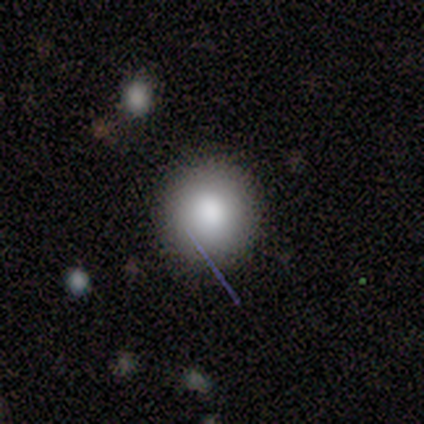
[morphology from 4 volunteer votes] Q: Smooth or featured?
A: smooth (75%); runner-up: featured or disk (25%)
Q: How rounded?
A: round (100%)
Q: Merging?
A: none (75%); runner-up: minor disturbance (25%)